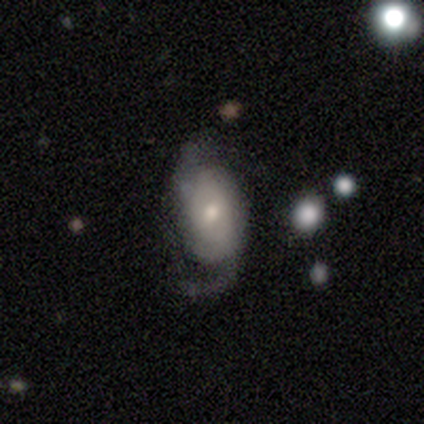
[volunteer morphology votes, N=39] A featured or disk galaxy (67%) with no bar (64%), 2 (67%) loose (52%) spiral arms (84%) and a moderate central bulge (48%). Merging: none (45%).